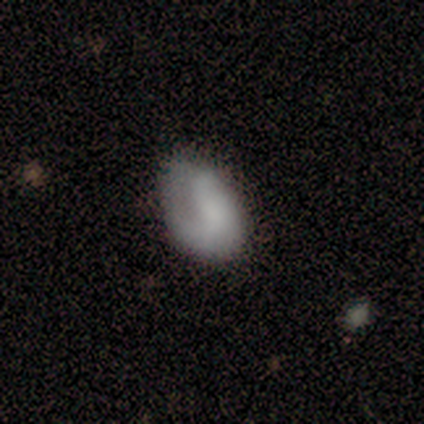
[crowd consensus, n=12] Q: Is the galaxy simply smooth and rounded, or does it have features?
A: smooth — 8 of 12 (67%).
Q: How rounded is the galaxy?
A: in between — 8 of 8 (100%).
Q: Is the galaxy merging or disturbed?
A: minor disturbance — 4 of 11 (36%, tied with major disturbance).